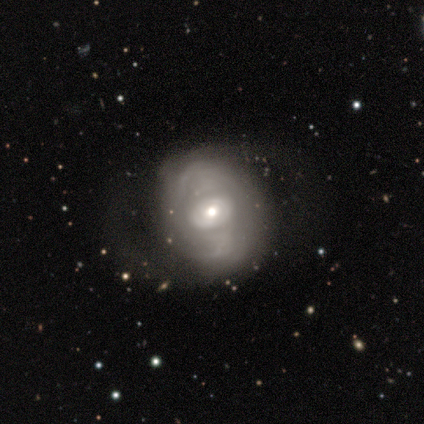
smooth-or-featured: featured or disk: 70% | smooth: 24% | star or artifact: 6%
  disk-edge-on: no: 96% | yes: 4%
    bar: no: 74% | weak: 21% | strong: 4%
    has-spiral-arms: yes: 55% | no: 45%
      spiral-winding: loose: 46% | medium: 31% | tight: 23%
      spiral-arm-count: 2: 50% | can't tell: 46% | 1: 4% | 3: 0% | 4: 0% | more than 4: 0%
    bulge-size: moderate: 60% | small: 30% | dominant: 9% | large: 2% | none: 0%
  merging: none: 35% | major disturbance: 20% | minor disturbance: 14% | merger: 0%